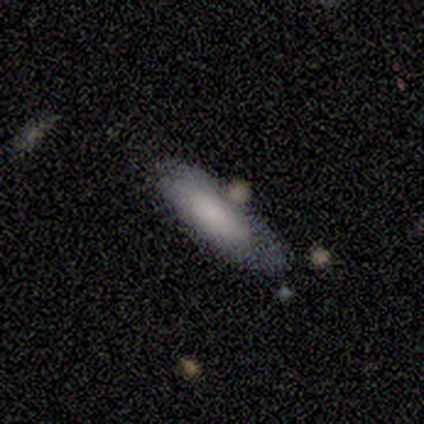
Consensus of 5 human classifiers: Smooth or featured?
  - smooth: 80% *
  - featured or disk: 20%
  - star or artifact: 0%
How rounded?
  - in between: 75% *
  - cigar-shaped: 25%
  - round: 0%
Merging?
  - none: 60% *
  - minor disturbance: 40%
  - major disturbance: 0%
  - merger: 0%